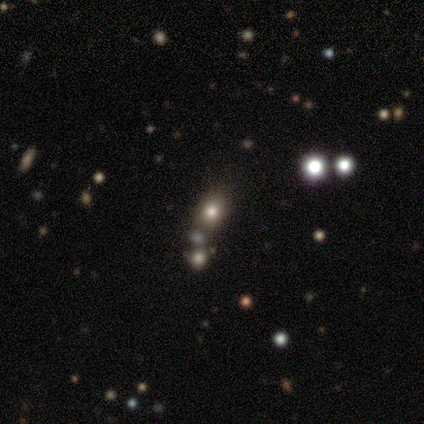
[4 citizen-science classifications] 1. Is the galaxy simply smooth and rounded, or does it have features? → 50% star or artifact, 25% smooth, 25% featured or disk.